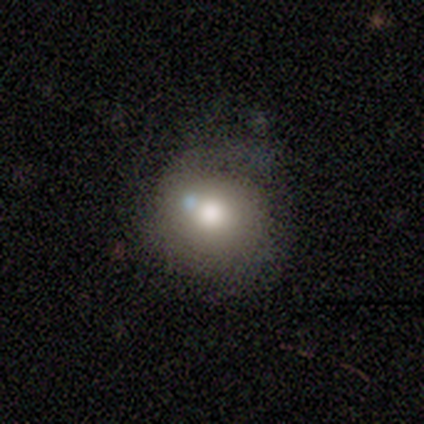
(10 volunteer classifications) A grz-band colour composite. It shows a smooth galaxy with no disk features (90%) that is round (100%). Merging: minor disturbance (40%).